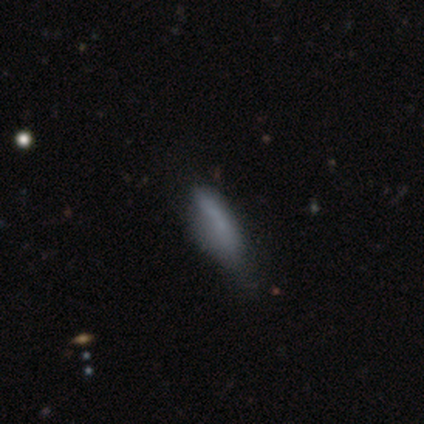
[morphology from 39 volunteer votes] type=smooth (74%); roundness=cigar-shaped (62%); merging=none (50%).